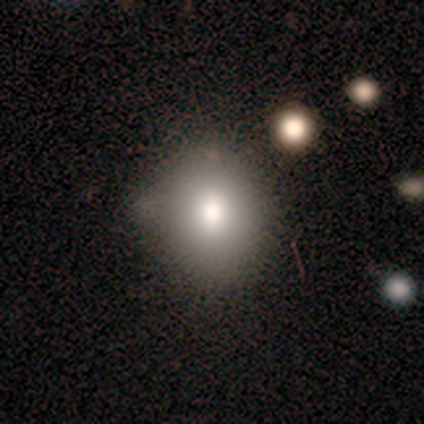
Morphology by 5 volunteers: This appears to be a smooth galaxy with no disk features (60%) that is round (67%). Merging: none (100%).